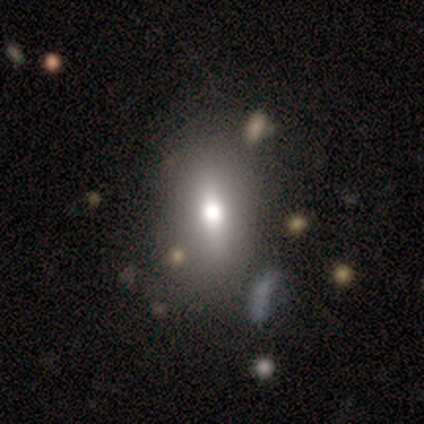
smooth-or-featured: smooth: 100% | featured or disk: 0% | star or artifact: 0%
  how-rounded: in between: 100% | round: 0% | cigar-shaped: 0%
  merging: none: 86% | minor disturbance: 14% | major disturbance: 0% | merger: 0%